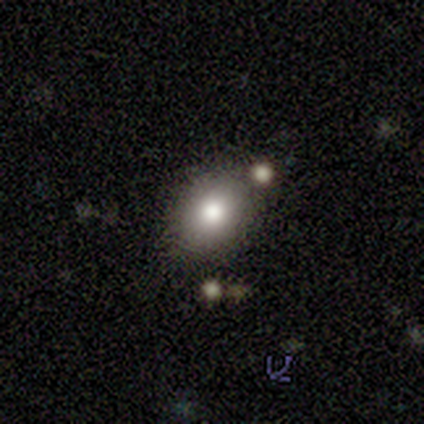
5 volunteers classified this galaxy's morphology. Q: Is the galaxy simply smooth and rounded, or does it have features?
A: smooth — 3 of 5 (60%).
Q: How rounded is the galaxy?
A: in between — 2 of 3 (67%).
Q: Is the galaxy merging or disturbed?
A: none — 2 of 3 (67%).